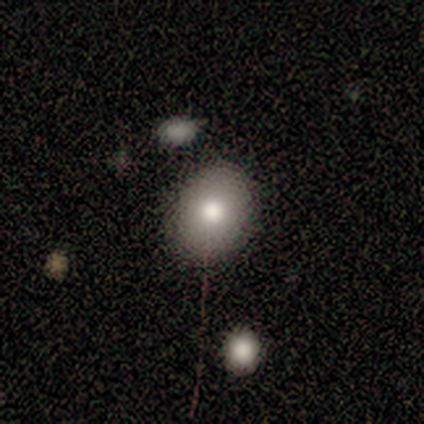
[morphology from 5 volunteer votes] type=smooth (80%); roundness=round (100%); merging=none (100%).